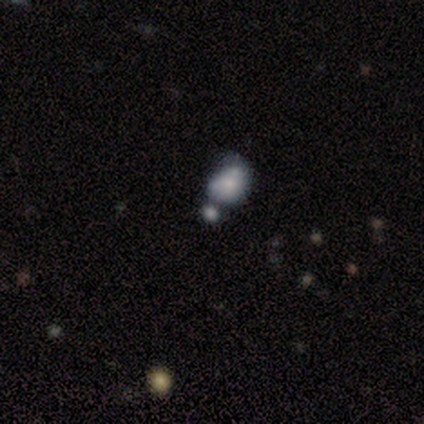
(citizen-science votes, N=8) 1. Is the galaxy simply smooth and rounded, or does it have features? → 50% featured or disk, 38% smooth, 12% star or artifact.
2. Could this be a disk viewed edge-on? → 100% no, 0% yes.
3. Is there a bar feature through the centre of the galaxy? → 100% no, 0% strong, 0% weak.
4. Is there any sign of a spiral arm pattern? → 100% no, 0% yes.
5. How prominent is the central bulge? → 75% small, 25% none, 0% dominant, 0% large, 0% moderate.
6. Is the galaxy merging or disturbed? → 43% merger, 29% major disturbance, 14% none, 14% minor disturbance.